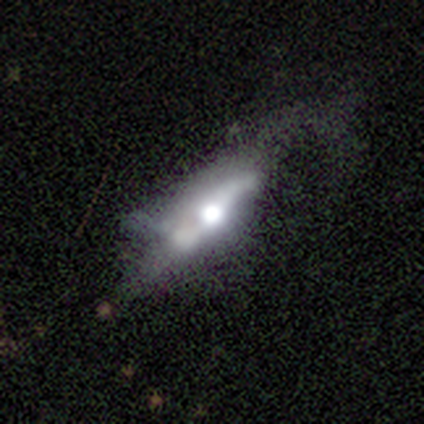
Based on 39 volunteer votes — featured or disk 59%, smooth 36%, star or artifact 5%. Down the decision tree: edge-on disk — yes (57%); edge-on bulge — rounded (92%); merging — major disturbance (49%).